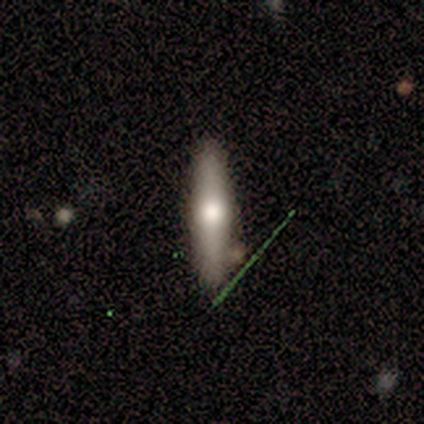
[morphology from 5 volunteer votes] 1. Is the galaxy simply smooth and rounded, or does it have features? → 60% smooth, 20% featured or disk, 20% star or artifact.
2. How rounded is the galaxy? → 100% cigar-shaped, 0% round, 0% in between.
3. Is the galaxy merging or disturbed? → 75% none, 25% minor disturbance, 0% major disturbance, 0% merger.